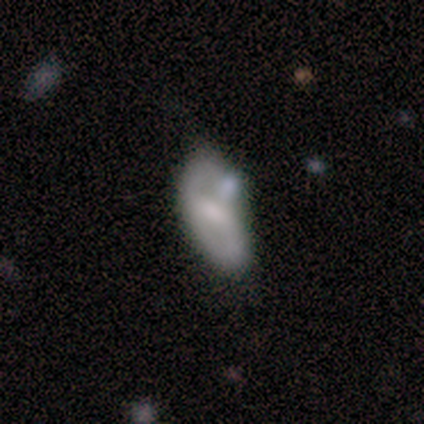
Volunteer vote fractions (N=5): This is likely a featured or disk galaxy (60%). It is clearly not viewed edge-on (100%). Bar: likely weak (67%). Spiral arm pattern: clearly no (100%). Central bulge: marginally large (33%, tied with small and none). Merging: possibly minor disturbance (50%).